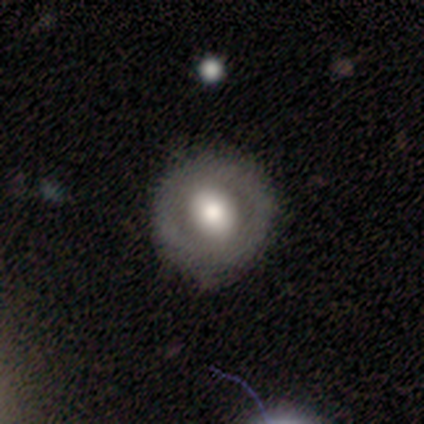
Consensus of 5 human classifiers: This appears to be a featured or disk galaxy (60%) with a weak bar (67%), no spiral arms (67%) and a large central bulge (67%). Merging: none (100%).